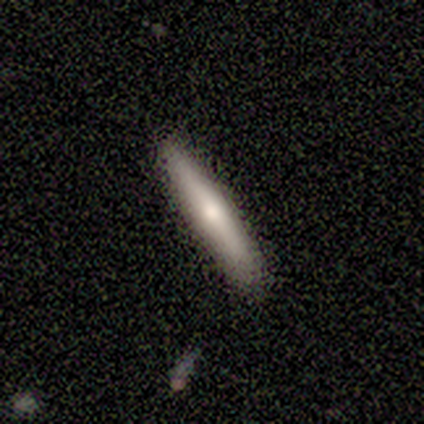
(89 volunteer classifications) A smooth galaxy with no disk features (61%) that is cigar-shaped (94%).

Vote fractions:
- Smooth or featured? smooth: 61% / featured or disk: 34% / star or artifact: 6%
- How rounded? cigar-shaped: 94% / in between: 6% / round: 0%
- Merging? none: 90% / minor disturbance: 7% / major disturbance: 1% / merger: 1%